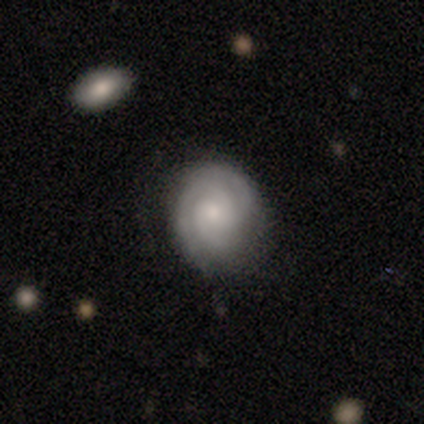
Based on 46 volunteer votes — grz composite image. It shows a featured or disk galaxy (76%) with no bar (69%), 3 (46%) tight (89%) spiral arms (100%) and a small central bulge (66%). Merging: none (84%).